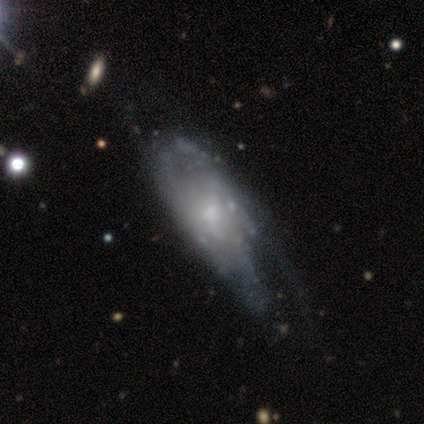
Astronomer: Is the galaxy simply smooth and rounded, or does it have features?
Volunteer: featured or disk — 88%.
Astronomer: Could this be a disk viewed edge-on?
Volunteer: no — 86%.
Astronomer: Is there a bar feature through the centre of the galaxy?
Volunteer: no — 75%.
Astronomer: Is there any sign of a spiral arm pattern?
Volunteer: yes — 67%.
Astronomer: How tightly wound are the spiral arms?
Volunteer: tight — 50% (runner-up: medium, 38%).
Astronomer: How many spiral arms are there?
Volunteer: can't tell — 62%.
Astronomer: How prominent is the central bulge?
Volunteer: moderate — 50%.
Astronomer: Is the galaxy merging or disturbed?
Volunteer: major disturbance — 38% (runner-up: none, 31%).